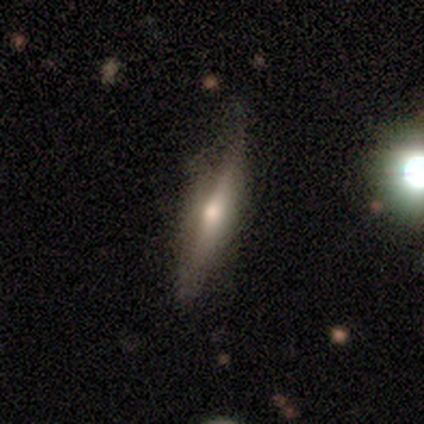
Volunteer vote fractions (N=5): Volunteers were most divided on "smooth or featured": smooth: 60%, featured or disk: 40%, star or artifact: 0%. More confident: how rounded — cigar-shaped (100%); merging — none (60%).